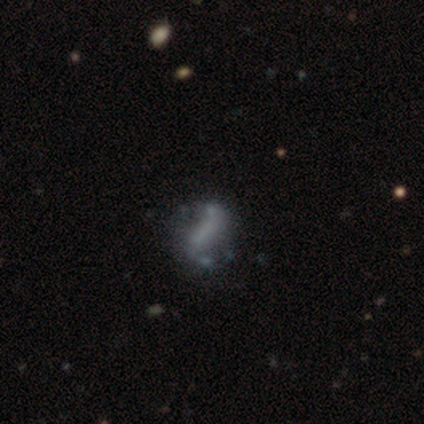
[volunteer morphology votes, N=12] Smooth or featured? 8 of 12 (67%) said featured or disk. Edge-on disk? 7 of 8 (88%) said no. Bar? 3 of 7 (43%) said strong. Spiral arms? 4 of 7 (57%) said no. Bulge size? 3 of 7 (43%) said none. Merging? 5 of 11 (45%, tied with minor disturbance) said none.